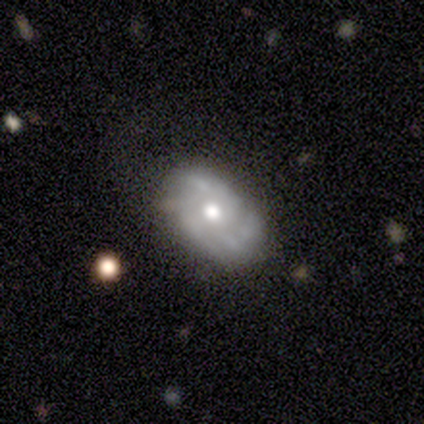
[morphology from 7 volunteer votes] Smooth or featured? 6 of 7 (86%) said featured or disk. Edge-on disk? 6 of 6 (100%) said no. Bar? 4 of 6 (67%) said no. Spiral arms? 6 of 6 (100%) said yes. Spiral winding? 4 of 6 (67%) said tight. Spiral arm count? 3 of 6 (50%) said can't tell. Bulge size? 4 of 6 (67%) said moderate. Merging? 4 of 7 (57%) said none.